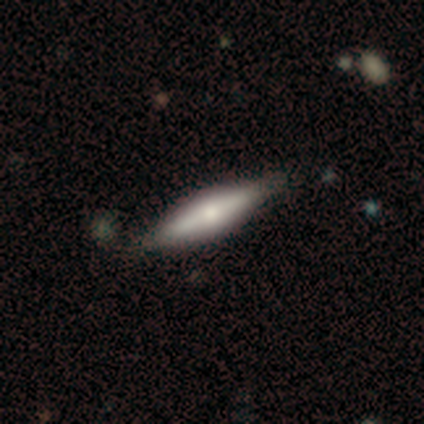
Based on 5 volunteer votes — Morphology: type=smooth (60%); roundness=in between (67%); merging=none (80%).